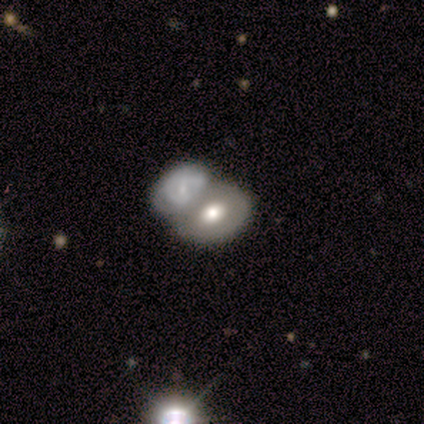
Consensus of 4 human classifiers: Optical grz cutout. It shows a featured or disk galaxy (75%) with no bar (67%), no spiral arms (100%) and a moderate central bulge (100%). Merging: none (50%, tied with merger).